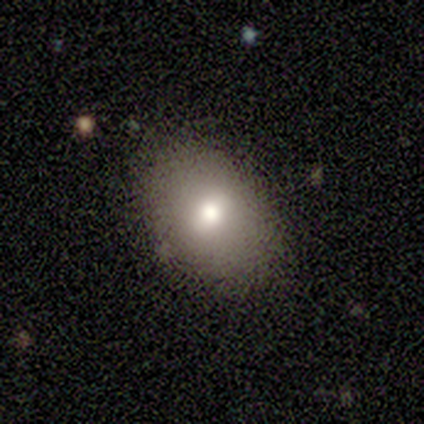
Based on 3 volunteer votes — A smooth galaxy with no disk features (100%) that is in between round and cigar-shaped (100%).

Vote fractions:
- Smooth or featured? smooth: 100% / featured or disk: 0% / star or artifact: 0%
- How rounded? in between: 100% / round: 0% / cigar-shaped: 0%
- Merging? none: 100% / minor disturbance: 0% / major disturbance: 0% / merger: 0%